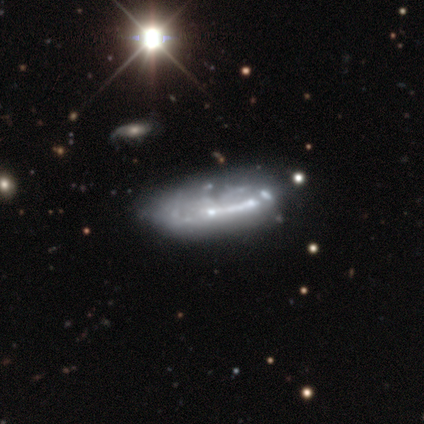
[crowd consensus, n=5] This is likely a featured or disk galaxy (60%). It is likely not viewed edge-on (67%). Bar: clearly no (100%). Spiral arm pattern: clearly no (100%). Central bulge: clearly none (100%). Merging: likely minor disturbance (75%).